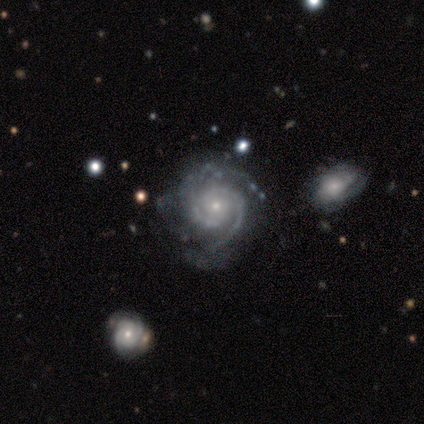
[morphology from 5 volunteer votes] Smooth or featured? featured or disk (100%)
Edge-on disk? no (100%)
Bar? no (100%)
Spiral arms? yes (100%)
Spiral winding? tight (80%)
Spiral arm count? 2 (60%)
Bulge size? small (80%)
Merging? none (80%)